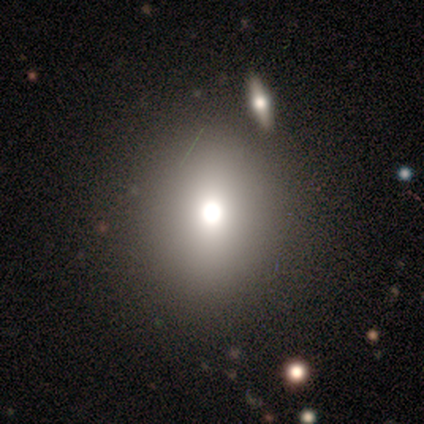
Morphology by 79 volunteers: smooth_or_featured: smooth (p=0.68) [alt: featured or disk p=0.22]
how_rounded: round (p=0.63) [alt: in between p=0.33]
merging: none (p=0.76) [alt: merger p=0.08]